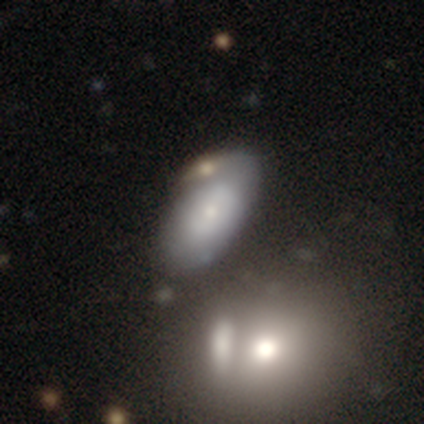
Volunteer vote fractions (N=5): smooth_or_featured: featured or disk (p=0.60) [alt: smooth p=0.40]
disk_edge_on: no (p=1.00)
bar: no (p=0.67) [alt: weak p=0.33]
has_spiral_arms: yes (p=0.67) [alt: no p=0.33]
spiral_winding: tight (p=0.50) [tied with: medium p=0.50]
spiral_arm_count: 3 (p=0.50) [tied with: can't tell p=0.50]
bulge_size: dominant (p=0.33) [tied with: moderate p=0.33, small p=0.33]
merging: none (p=0.80) [alt: merger p=0.20]